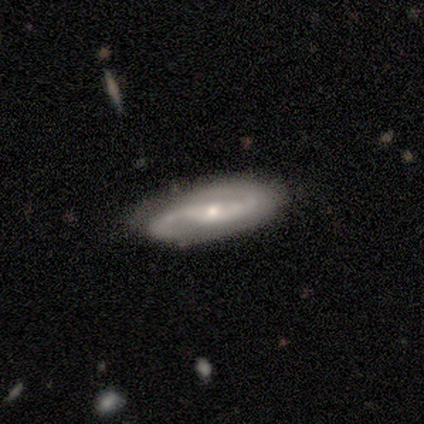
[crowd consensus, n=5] This is clearly a featured or disk galaxy (80%). It is likely not viewed edge-on (75%). Bar: clearly weak (100%). Spiral arm pattern: clearly yes (100%). Spiral arm count: clearly 2 (100%). Spiral winding: likely medium (67%). Central bulge: clearly moderate (100%). Merging: possibly none (50%, tied with minor disturbance).